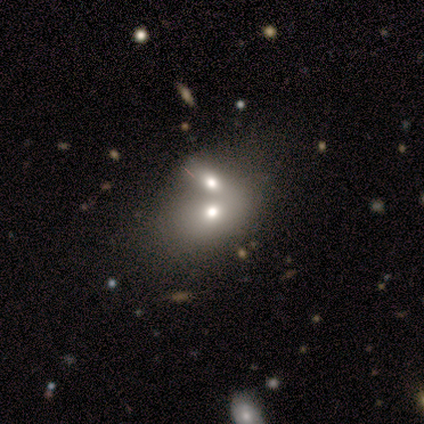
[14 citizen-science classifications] smooth-or-featured: smooth: 43% | featured or disk: 36% | star or artifact: 21%
  how-rounded: in between: 67% | round: 33% | cigar-shaped: 0%
  merging: merger: 82% | none: 9% | minor disturbance: 9% | major disturbance: 0%